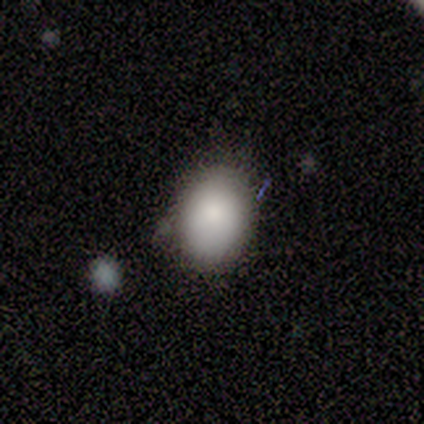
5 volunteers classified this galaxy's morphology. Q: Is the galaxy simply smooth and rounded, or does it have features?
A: smooth — 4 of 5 (80%).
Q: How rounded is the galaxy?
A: in between — 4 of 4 (100%).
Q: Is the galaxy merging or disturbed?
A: none — 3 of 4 (75%).